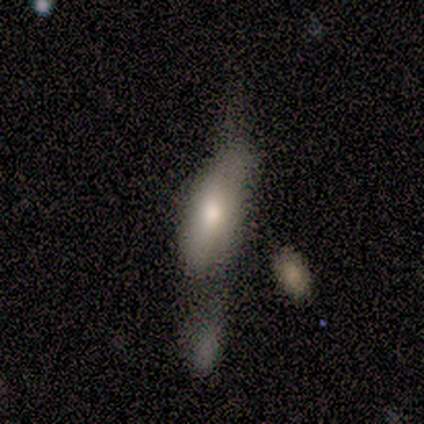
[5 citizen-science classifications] Smooth or featured: smooth — 80% (featured or disk — 20%)
How rounded: in between — 100%
Merging: major disturbance — 60% (none — 20%)